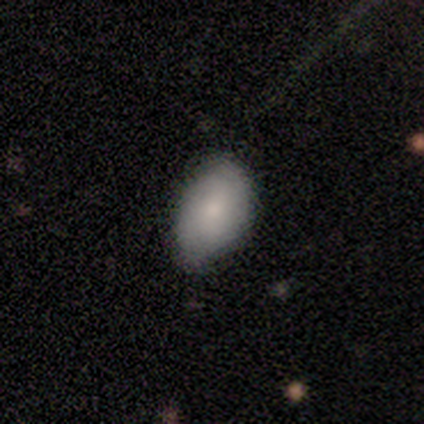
Morphology: type=smooth (50%); roundness=in between (100%); merging=none (100%).